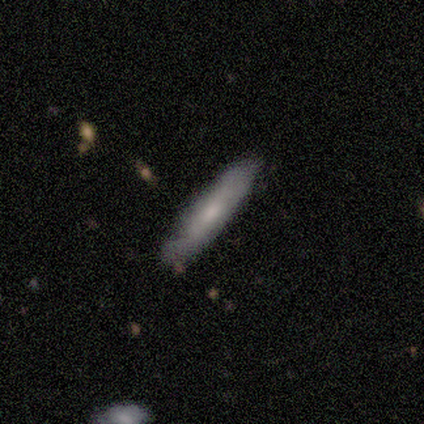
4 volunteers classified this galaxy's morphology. Overall: smooth (50%, tied with featured or disk). How rounded: cigar-shaped (100%). Merging: none (100%).